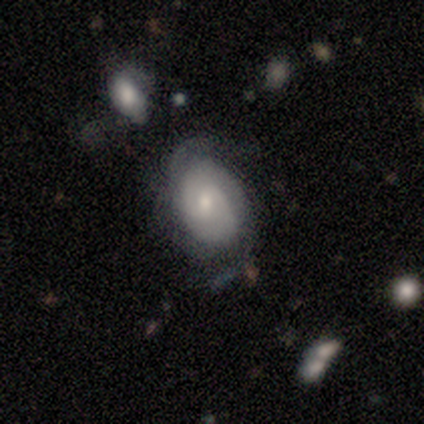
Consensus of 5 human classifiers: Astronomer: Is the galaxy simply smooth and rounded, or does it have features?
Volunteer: featured or disk — 100%.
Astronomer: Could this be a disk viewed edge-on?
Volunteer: no — 100%.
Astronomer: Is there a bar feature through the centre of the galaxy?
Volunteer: weak — 80%.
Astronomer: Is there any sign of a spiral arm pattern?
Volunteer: yes — 80%.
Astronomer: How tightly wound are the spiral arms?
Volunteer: tight — 50%.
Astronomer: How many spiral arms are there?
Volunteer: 2 — 75%.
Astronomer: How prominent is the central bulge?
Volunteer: moderate — 40%, tied with small at 40%.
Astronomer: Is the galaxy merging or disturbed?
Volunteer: none — 80%.